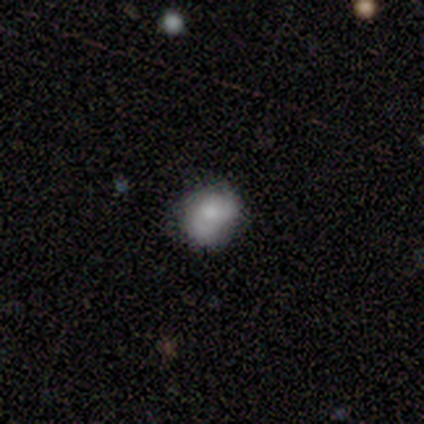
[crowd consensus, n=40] smooth-or-featured: smooth: 65% | featured or disk: 25% | star or artifact: 10%
  how-rounded: round: 62% | in between: 38% | cigar-shaped: 0%
  merging: none: 64% | minor disturbance: 22% | major disturbance: 8% | merger: 6%